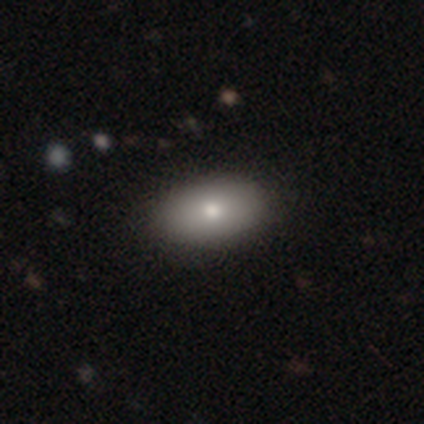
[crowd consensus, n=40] smooth 88%, featured or disk 10%, star or artifact 2%. Down the decision tree: how rounded — in between (91%); merging — none (67%).